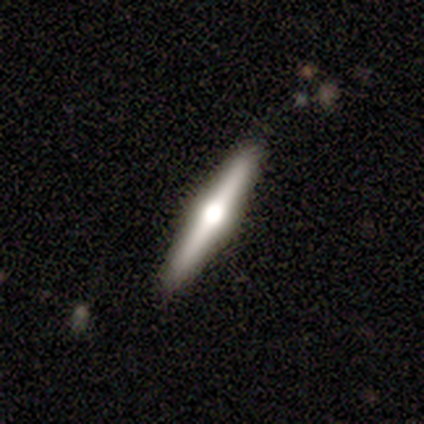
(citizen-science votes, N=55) Smooth or featured: featured or disk — 75% (smooth — 18%)
Edge-on disk: yes — 98% (no — 2%)
Edge-on bulge: rounded — 95% (none — 5%)
Merging: none — 98% (minor disturbance — 2%)